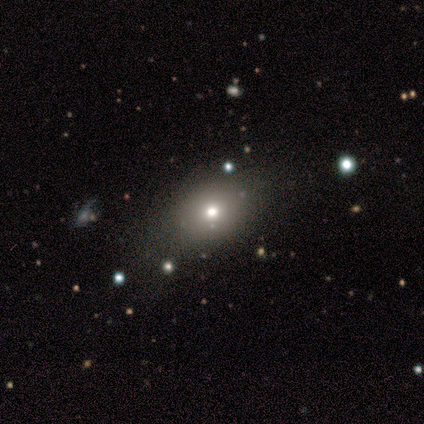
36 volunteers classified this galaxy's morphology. Smooth or featured?
  - smooth: 56% *
  - star or artifact: 28%
  - featured or disk: 17%
How rounded?
  - round: 70% *
  - in between: 30%
  - cigar-shaped: 0%
Merging?
  - none: 92% *
  - minor disturbance: 4%
  - major disturbance: 4%
  - merger: 0%